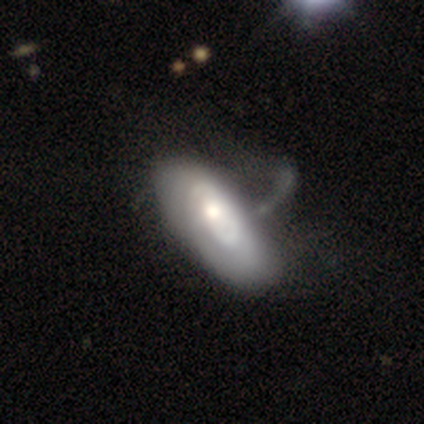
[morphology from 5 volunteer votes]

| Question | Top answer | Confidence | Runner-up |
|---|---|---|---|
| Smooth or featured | featured or disk | 80% | smooth (20%) |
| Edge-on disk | no | 100% | — |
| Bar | no | 100% | — |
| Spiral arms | yes | 50% | tied: no (50%) |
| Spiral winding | medium | 50% | tied: loose (50%) |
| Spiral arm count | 2 | 50% | tied: can't tell (50%) |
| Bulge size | moderate | 50% | tied: small (50%) |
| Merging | major disturbance | 40% | none (20%) |